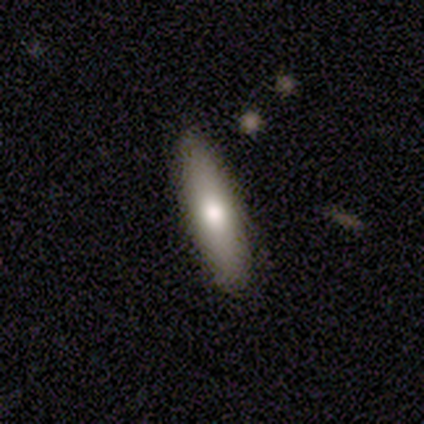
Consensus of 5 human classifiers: Q: Smooth or featured?
A: smooth (80%); runner-up: star or artifact (20%)
Q: How rounded?
A: cigar-shaped (75%); runner-up: round (25%)
Q: Merging?
A: none (100%)